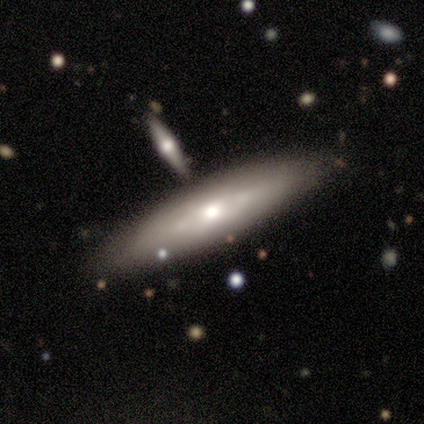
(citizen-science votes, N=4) smooth_or_featured: smooth (p=0.75) [alt: featured or disk p=0.25]
how_rounded: in between (p=0.67) [alt: cigar-shaped p=0.33]
merging: none (p=0.75) [alt: major disturbance p=0.25]